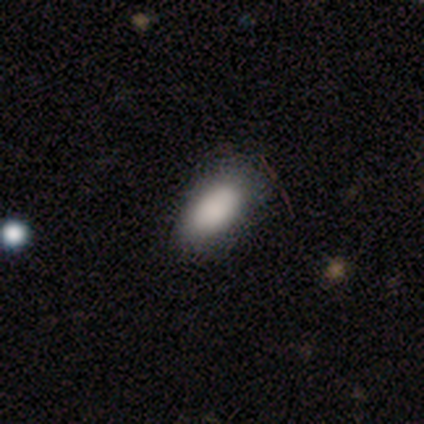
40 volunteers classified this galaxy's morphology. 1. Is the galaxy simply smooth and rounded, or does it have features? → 85% smooth, 12% star or artifact, 2% featured or disk.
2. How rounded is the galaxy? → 91% in between, 6% round, 3% cigar-shaped.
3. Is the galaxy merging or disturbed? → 54% none, 37% minor disturbance, 9% major disturbance, 0% merger.